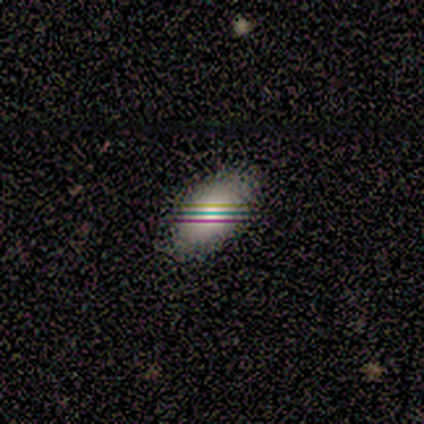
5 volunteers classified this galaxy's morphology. Smooth or featured? smooth (100%)
How rounded? in between (100%)
Merging? none (100%)